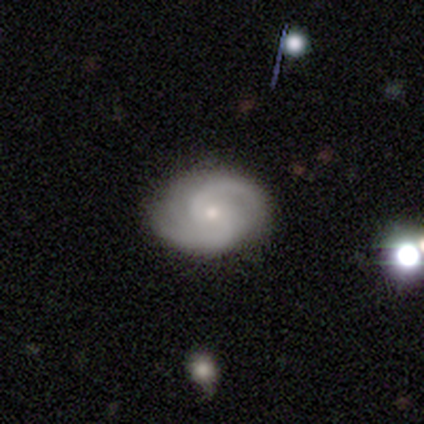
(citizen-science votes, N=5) Smooth or featured? 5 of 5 (100%) said featured or disk. Edge-on disk? 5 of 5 (100%) said no. Bar? 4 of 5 (80%) said no. Spiral arms? 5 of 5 (100%) said yes. Spiral winding? 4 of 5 (80%) said medium. Spiral arm count? 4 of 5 (80%) said 2. Bulge size? 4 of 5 (80%) said small. Merging? 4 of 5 (80%) said none.